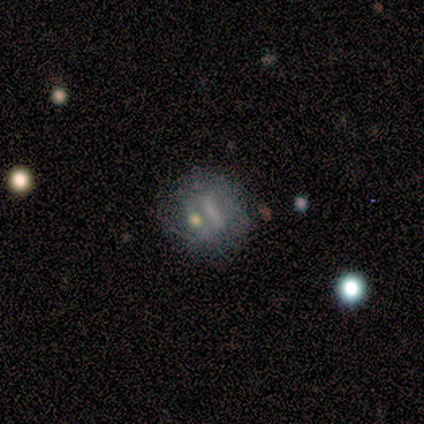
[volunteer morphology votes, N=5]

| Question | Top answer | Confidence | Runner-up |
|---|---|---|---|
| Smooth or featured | featured or disk | 60% | smooth (40%) |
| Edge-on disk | no | 100% | — |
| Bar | weak | 67% | strong (33%) |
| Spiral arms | no | 67% | yes (33%) |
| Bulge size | moderate | 33% | tied: small (33%), none (33%) |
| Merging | none | 60% | minor disturbance (20%) |